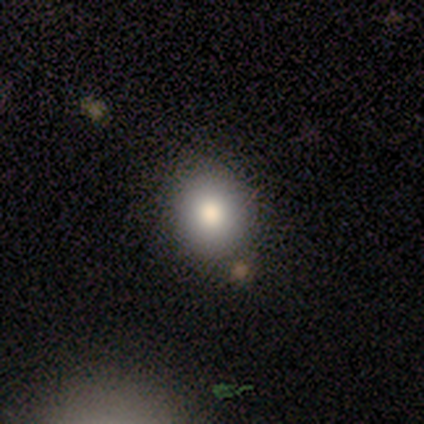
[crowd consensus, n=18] Q: Smooth or featured?
A: smooth (94%); runner-up: star or artifact (6%)
Q: How rounded?
A: round (53%); runner-up: in between (47%)
Q: Merging?
A: none (88%); runner-up: minor disturbance (6%)